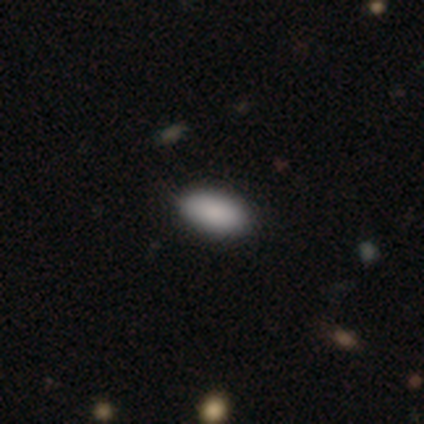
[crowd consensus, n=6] Smooth or featured? smooth (100%)
How rounded? in between (100%)
Merging? none (83%)